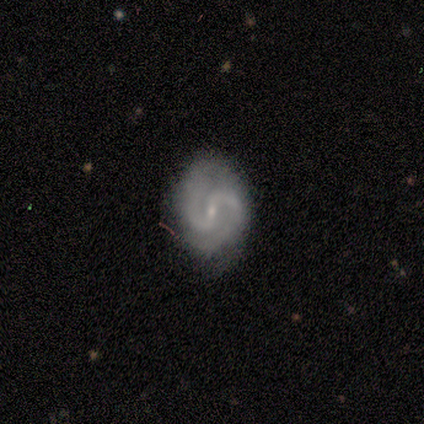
Volunteers were most divided on "bar": weak: 50%, strong: 33%, no: 17%. More confident: smooth or featured — featured or disk (100%); edge-on disk — no (100%); spiral arms — yes (100%); spiral arm count — 2 (100%); bulge size — small (100%); spiral winding — medium (83%); merging — none (67%).